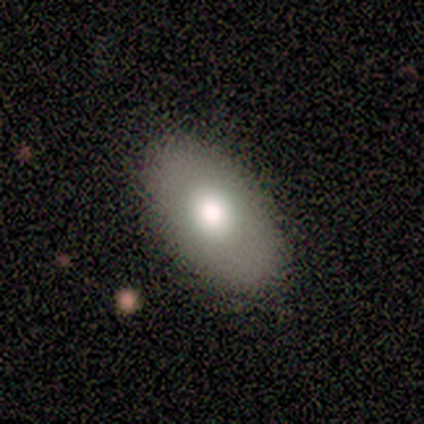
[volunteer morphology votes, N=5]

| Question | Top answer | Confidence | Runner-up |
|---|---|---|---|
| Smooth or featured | smooth | 80% | featured or disk (20%) |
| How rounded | in between | 100% | — |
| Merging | none | 80% | minor disturbance (20%) |